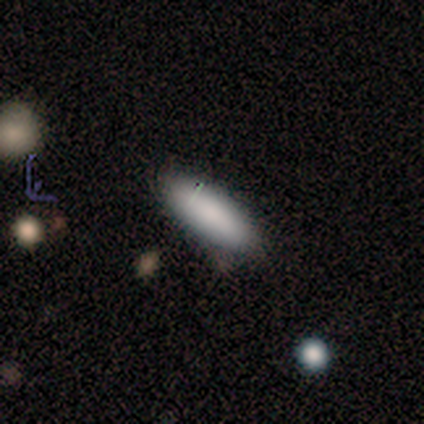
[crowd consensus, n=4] smooth 100%, featured or disk 0%, star or artifact 0%. Down the decision tree: how rounded — in between (100%); merging — none (75%).